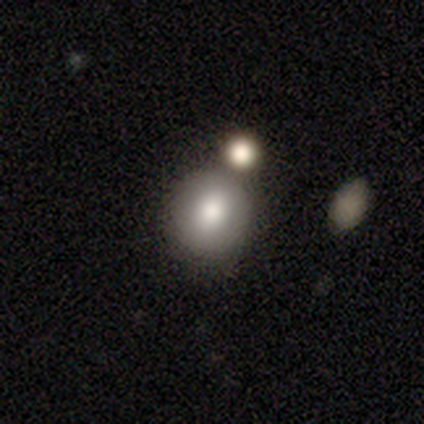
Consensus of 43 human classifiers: smooth_or_featured: smooth (p=0.86) [alt: star or artifact p=0.12]
how_rounded: round (p=0.70) [alt: in between p=0.30]
merging: none (p=0.66) [alt: merger p=0.18]